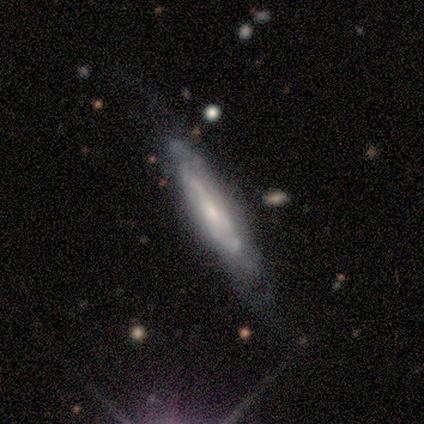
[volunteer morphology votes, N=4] Smooth or featured?
  - featured or disk: 50% *
  - smooth: 25%
  - star or artifact: 25%
Edge-on disk?
  - yes: 50% * (tied)
  - no: 50% * (tied)
Edge-on bulge?
  - rounded: 100% *
  - boxy: 0%
  - none: 0%
Merging?
  - none: 67% *
  - minor disturbance: 33%
  - major disturbance: 0%
  - merger: 0%